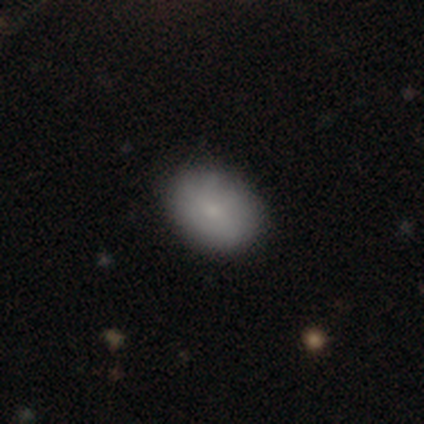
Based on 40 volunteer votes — smooth-or-featured: smooth: 75% | featured or disk: 15% | star or artifact: 10%
  how-rounded: in between: 80% | round: 20% | cigar-shaped: 0%
  merging: none: 92% | minor disturbance: 8% | major disturbance: 0% | merger: 0%